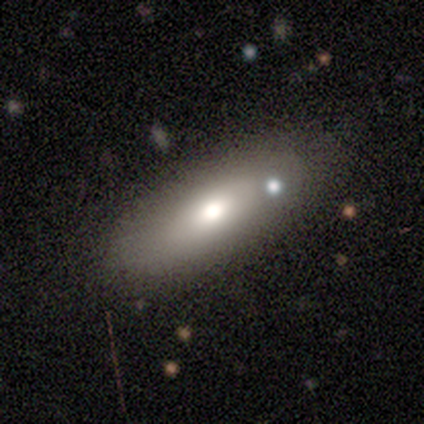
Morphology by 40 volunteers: Q: Smooth or featured?
A: smooth (72%); runner-up: featured or disk (22%)
Q: How rounded?
A: in between (76%); runner-up: cigar-shaped (21%)
Q: Merging?
A: none (63%); runner-up: minor disturbance (13%)